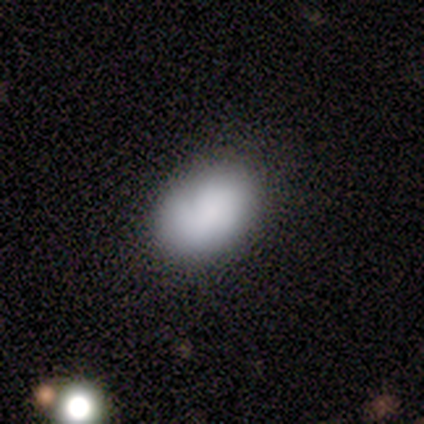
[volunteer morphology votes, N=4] Overall: smooth (100%). How rounded: in between (100%). Merging: none (100%).